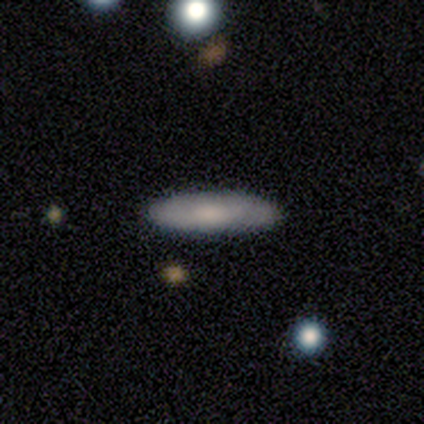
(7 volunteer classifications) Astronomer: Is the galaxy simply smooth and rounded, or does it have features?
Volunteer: smooth — 57%.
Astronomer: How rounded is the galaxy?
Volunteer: in between — 50%, tied with cigar-shaped at 50%.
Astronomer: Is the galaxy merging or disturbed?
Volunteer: none — 83%.